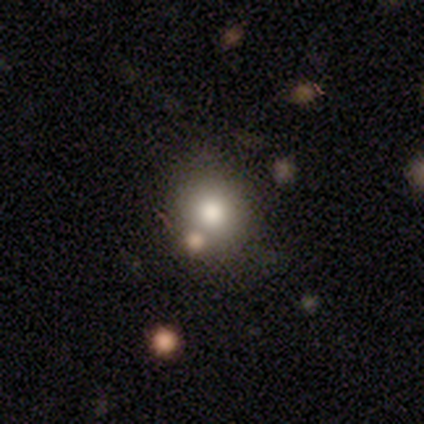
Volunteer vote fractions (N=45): A smooth galaxy with no disk features (71%) that is round (78%).

Vote fractions:
- Smooth or featured? smooth: 71% / featured or disk: 16% / star or artifact: 13%
- How rounded? round: 78% / in between: 22% / cigar-shaped: 0%
- Merging? none: 72% / minor disturbance: 15% / merger: 10% / major disturbance: 3%